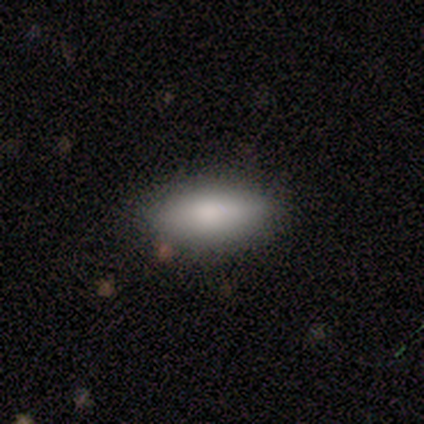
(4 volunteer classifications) smooth-or-featured: smooth: 75% | featured or disk: 25% | star or artifact: 0%
  how-rounded: in between: 100% | round: 0% | cigar-shaped: 0%
  merging: none: 100% | minor disturbance: 0% | major disturbance: 0% | merger: 0%